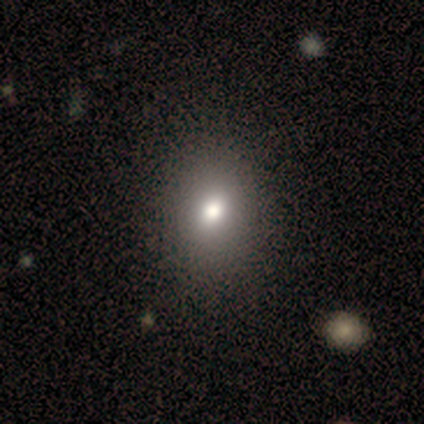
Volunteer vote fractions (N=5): Smooth or featured? smooth (100%)
How rounded? in between (80%)
Merging? none (100%)